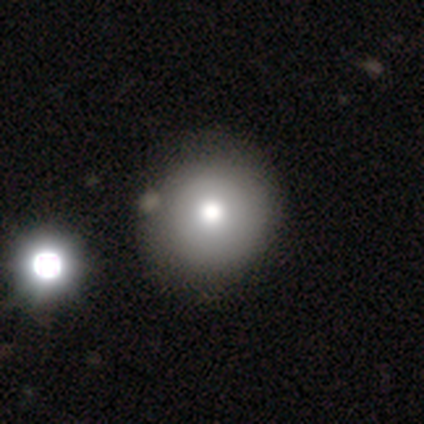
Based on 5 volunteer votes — Volunteers were most divided on "smooth or featured": smooth: 60%, featured or disk: 40%, star or artifact: 0%. More confident: how rounded — round (67%); merging — minor disturbance (60%).